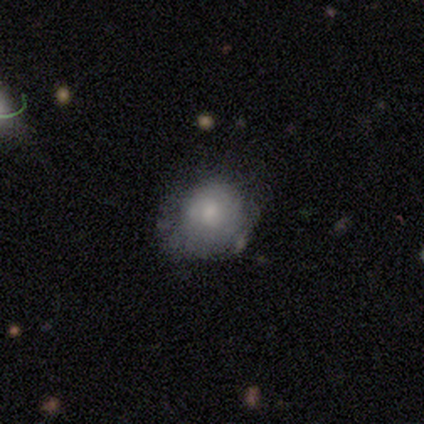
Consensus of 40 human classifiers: smooth-or-featured: smooth: 65% | featured or disk: 22% | star or artifact: 12%
  how-rounded: round: 88% | in between: 12% | cigar-shaped: 0%
  merging: none: 57% | minor disturbance: 29% | major disturbance: 11% | merger: 3%